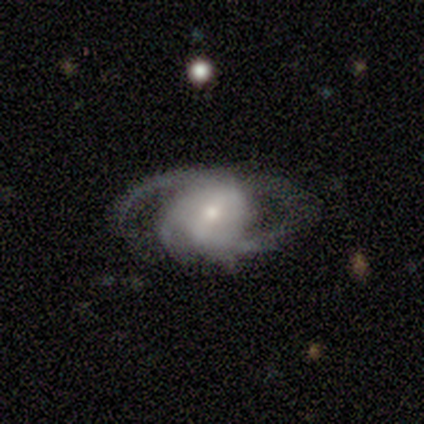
Overall: featured or disk (75%). Edge-on disk: no (67%; yes 33%). Bar: weak (50%, tied with no). Spiral arms: yes (50%, tied with no). Spiral arm count: 3 (100%). Spiral winding: tight (100%). Bulge size: small (100%). Merging: none (50%, tied with major disturbance).